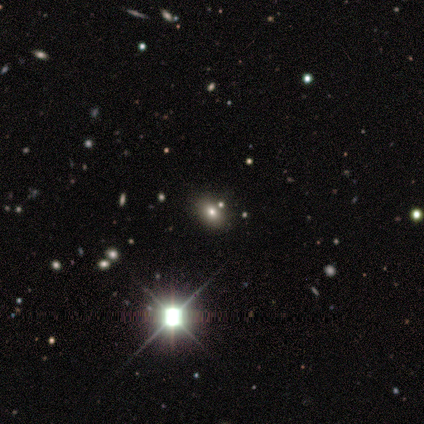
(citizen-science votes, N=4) Overall: star or artifact (100%).